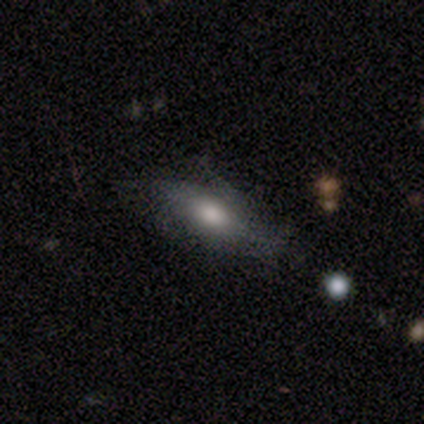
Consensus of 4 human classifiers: This is likely a smooth galaxy (75%). How rounded: clearly in between (100%). Merging: likely none (75%).